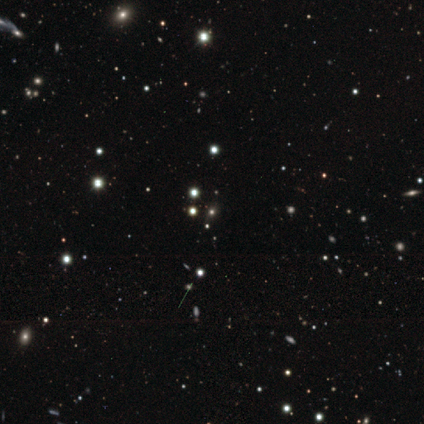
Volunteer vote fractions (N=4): Morphology: type=star or artifact (75%).